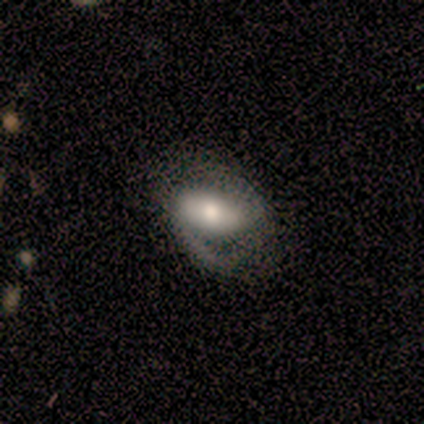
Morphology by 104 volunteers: Smooth or featured: featured or disk — 65% (smooth — 30%)
Edge-on disk: no — 94% (yes — 6%)
Bar: strong — 47% (weak — 30%)
Spiral arms: yes — 88% (no — 12%)
Spiral winding: medium — 57% (loose — 27%)
Spiral arm count: 2 — 77% (1 — 20%)
Bulge size: moderate — 55% (large — 31%)
Merging: none — 51% (major disturbance — 25%)